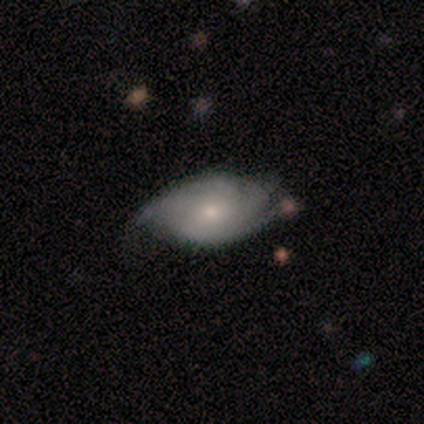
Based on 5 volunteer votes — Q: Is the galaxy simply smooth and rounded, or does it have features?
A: featured or disk — 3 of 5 (60%).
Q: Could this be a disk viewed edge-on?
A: no — 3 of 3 (100%).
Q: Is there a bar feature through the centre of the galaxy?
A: no — 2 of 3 (67%).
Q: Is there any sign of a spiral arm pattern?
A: yes — 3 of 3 (100%).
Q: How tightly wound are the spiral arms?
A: tight — 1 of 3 (33%, tied with medium and loose).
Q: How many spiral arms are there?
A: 2 — 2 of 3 (67%).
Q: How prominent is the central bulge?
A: small — 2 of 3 (67%).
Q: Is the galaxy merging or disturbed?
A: none — 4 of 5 (80%).